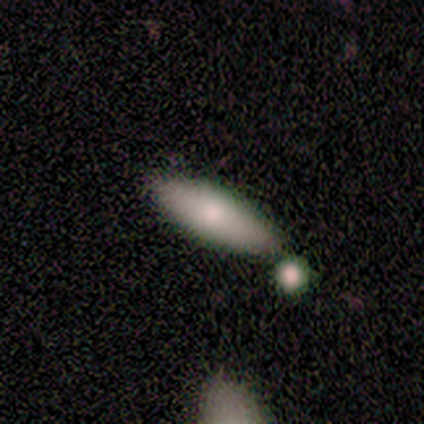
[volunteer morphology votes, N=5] Volunteers were most divided on "how rounded": in between: 75%, cigar-shaped: 25%, round: 0%. More confident: smooth or featured — smooth (80%); merging — none (75%).